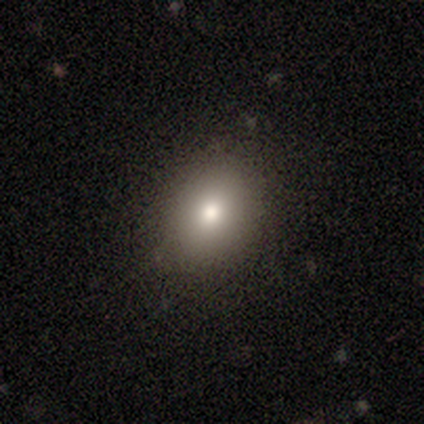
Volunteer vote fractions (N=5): smooth 60%, featured or disk 20%, star or artifact 20%. Down the decision tree: how rounded — in between (67%); merging — none (50%, tied with minor disturbance).